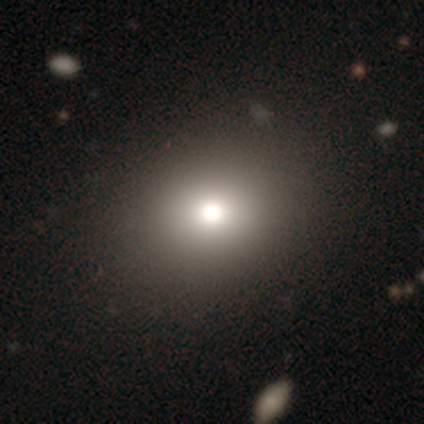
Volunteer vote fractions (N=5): Smooth or featured?
  - smooth: 40% * (tied)
  - star or artifact: 40% * (tied)
  - featured or disk: 20%
How rounded?
  - round: 100% *
  - in between: 0%
  - cigar-shaped: 0%
Merging?
  - none: 67% *
  - minor disturbance: 33%
  - major disturbance: 0%
  - merger: 0%